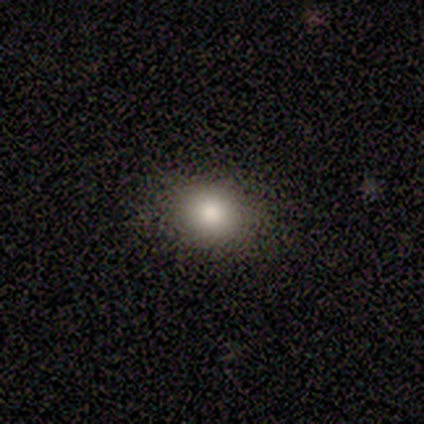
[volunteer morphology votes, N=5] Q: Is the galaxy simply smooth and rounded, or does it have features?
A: smooth — 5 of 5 (100%).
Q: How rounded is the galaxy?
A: round — 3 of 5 (60%).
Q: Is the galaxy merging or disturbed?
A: none — 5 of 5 (100%).